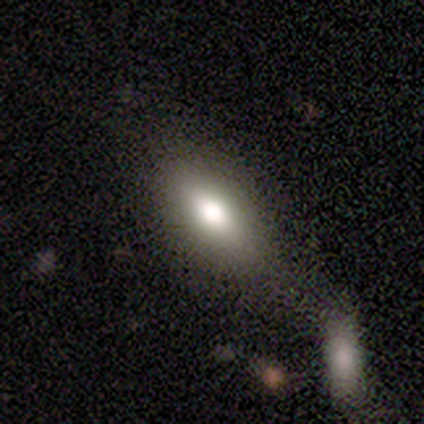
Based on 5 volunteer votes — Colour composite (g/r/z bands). It shows a smooth galaxy with no disk features (80%) that is in between round and cigar-shaped (50%). Merging: none (60%).